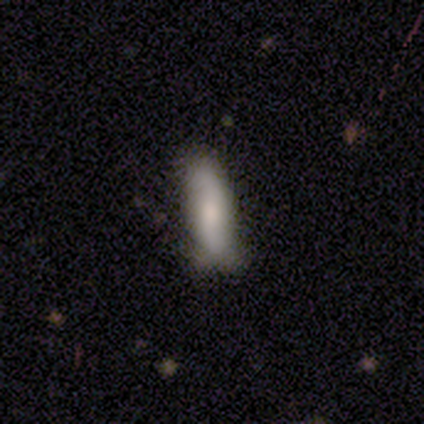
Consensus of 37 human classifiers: Q: Smooth or featured?
A: smooth (78%); runner-up: featured or disk (19%)
Q: How rounded?
A: cigar-shaped (62%); runner-up: in between (34%)
Q: Merging?
A: none (56%); runner-up: minor disturbance (36%)